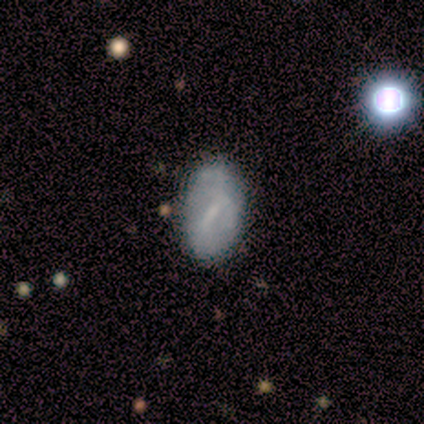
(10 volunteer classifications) Smooth or featured? 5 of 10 (50%, tied with featured or disk) said smooth. How rounded? 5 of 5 (100%) said in between. Merging? 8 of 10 (80%) said none.